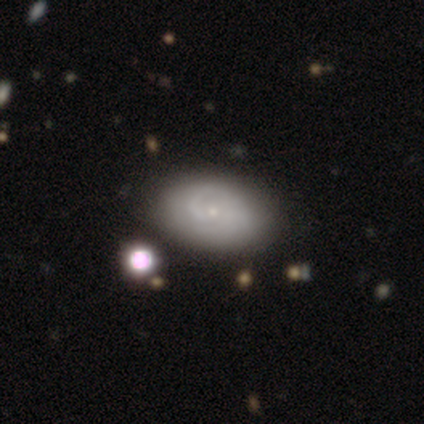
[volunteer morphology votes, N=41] This is likely a featured or disk galaxy (61%). It is clearly not viewed edge-on (96%). Bar: possibly no (58%). Spiral arm pattern: clearly yes (92%). Spiral arm count: possibly 2 (45%). Spiral winding: marginally medium (41%). Central bulge: clearly small (83%). Merging: possibly none (59%).